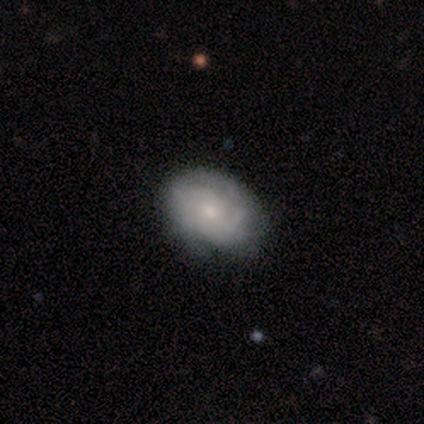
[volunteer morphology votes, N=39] smooth_or_featured: featured or disk (p=0.64) [alt: smooth p=0.36]
disk_edge_on: no (p=0.88) [alt: yes p=0.12]
bar: no (p=0.86) [alt: weak p=0.14]
has_spiral_arms: yes (p=0.82) [alt: no p=0.18]
spiral_winding: tight (p=0.61) [alt: medium p=0.28]
spiral_arm_count: can't tell (p=0.56) [alt: 2 p=0.22]
bulge_size: small (p=0.68) [alt: moderate p=0.18]
merging: none (p=0.79) [alt: minor disturbance p=0.10]